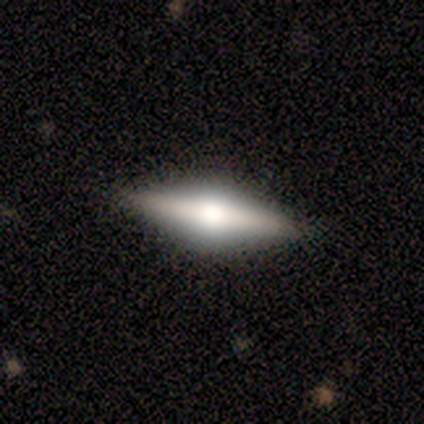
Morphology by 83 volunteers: This appears to be a featured or disk galaxy (71%) viewed edge-on (98%) with a rounded central bulge (91%). Merging: none (92%).